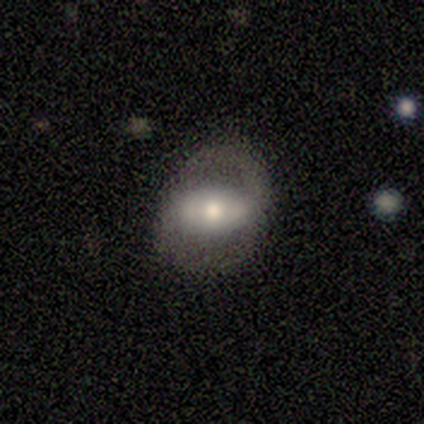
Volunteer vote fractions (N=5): smooth_or_featured: featured or disk (p=0.60) [alt: smooth p=0.40]
disk_edge_on: no (p=1.00)
bar: strong (p=0.67) [alt: weak p=0.33]
has_spiral_arms: yes (p=1.00)
spiral_winding: loose (p=0.67) [alt: medium p=0.33]
spiral_arm_count: 1 (p=0.33) [tied with: 2 p=0.33, can't tell p=0.33]
bulge_size: moderate (p=1.00)
merging: none (p=0.80) [alt: major disturbance p=0.20]